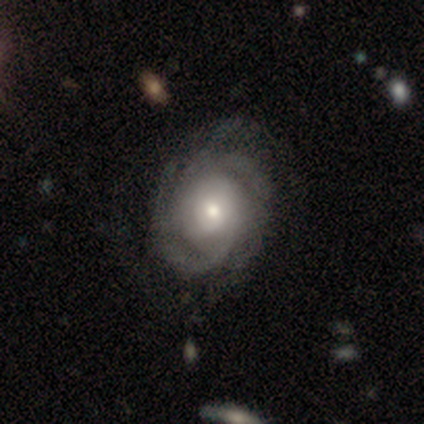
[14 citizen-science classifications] Smooth or featured: featured or disk — 93% (smooth — 7%)
Edge-on disk: no — 100%
Bar: no — 77% (weak — 15%)
Spiral arms: yes — 92% (no — 8%)
Spiral winding: tight — 67% (medium — 17%)
Spiral arm count: 3 — 50% (can't tell — 25%)
Bulge size: moderate — 62% (small — 38%)
Merging: none — 86% (minor disturbance — 7%)